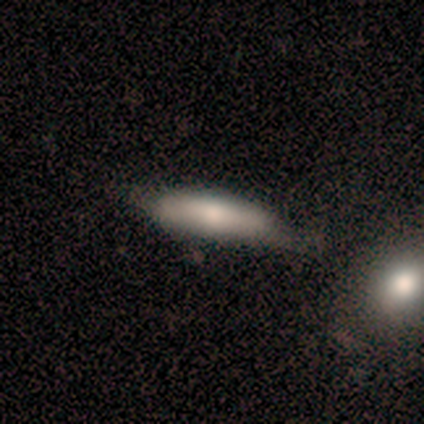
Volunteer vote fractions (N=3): Smooth or featured?
  - smooth: 100% *
  - featured or disk: 0%
  - star or artifact: 0%
How rounded?
  - cigar-shaped: 100% *
  - round: 0%
  - in between: 0%
Merging?
  - none: 67% *
  - minor disturbance: 33%
  - major disturbance: 0%
  - merger: 0%